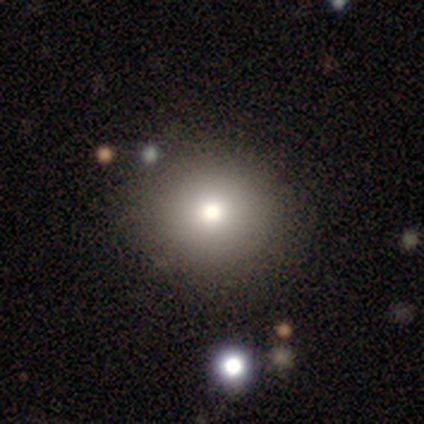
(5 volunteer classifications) Overall: smooth (40%, tied with star or artifact). How rounded: round (50%, tied with in between). Merging: none (67%; major disturbance 33%).